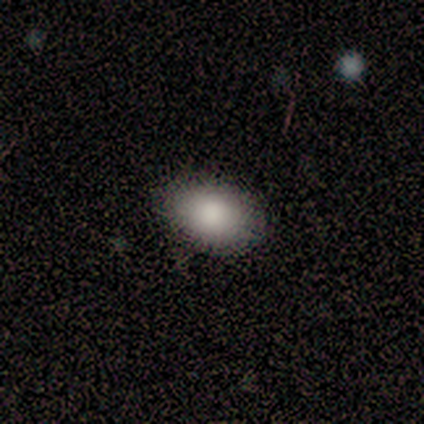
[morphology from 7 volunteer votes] Volunteers were most divided on "smooth or featured": smooth: 86%, featured or disk: 14%, star or artifact: 0%. More confident: how rounded — in between (100%); merging — none (86%).